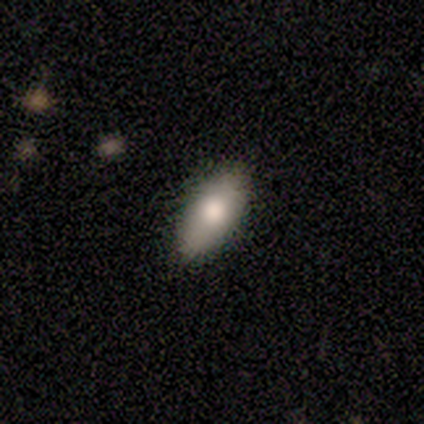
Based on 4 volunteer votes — Overall: smooth (100%). How rounded: in between (100%). Merging: none (75%).